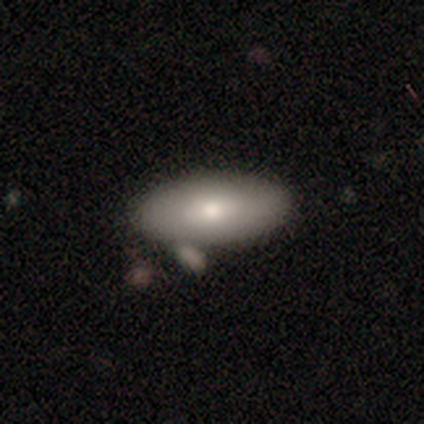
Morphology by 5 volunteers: Volunteers were most divided on "merging" (2-way tie): none: 50%, minor disturbance: 50%, major disturbance: 0%, merger: 0%. More confident: how rounded — in between (100%); smooth or featured — smooth (60%).